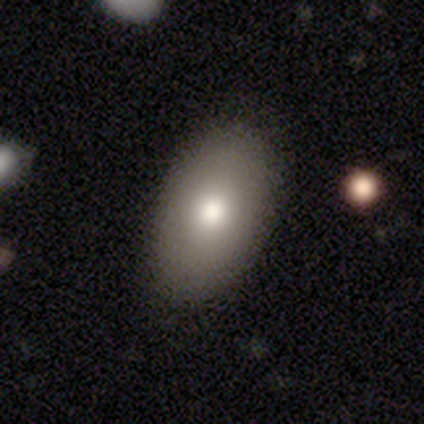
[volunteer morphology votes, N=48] Smooth or featured: smooth — 88% (featured or disk — 8%)
How rounded: in between — 100%
Merging: none — 89% (minor disturbance — 9%)